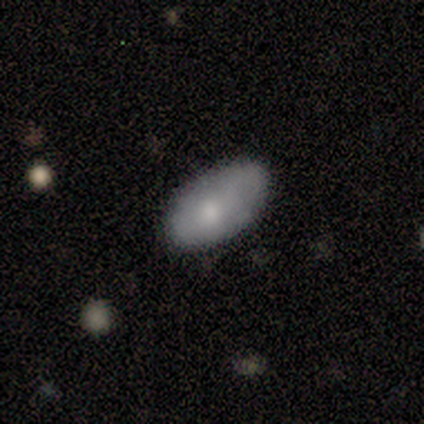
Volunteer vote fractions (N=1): smooth-or-featured: smooth: 100% | featured or disk: 0% | star or artifact: 0%
  how-rounded: in between: 100% | round: 0% | cigar-shaped: 0%
  merging: none: 100% | minor disturbance: 0% | major disturbance: 0% | merger: 0%